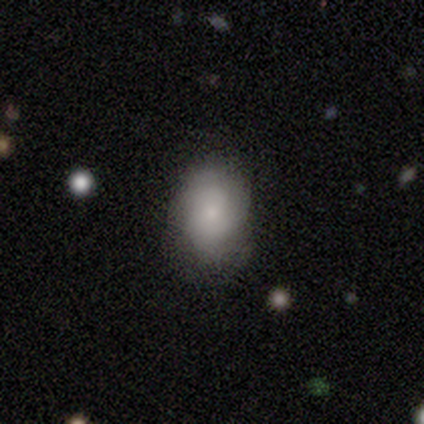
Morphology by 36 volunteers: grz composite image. It shows a smooth galaxy with no disk features (72%) that is in between round and cigar-shaped (88%). Merging: none (63%).